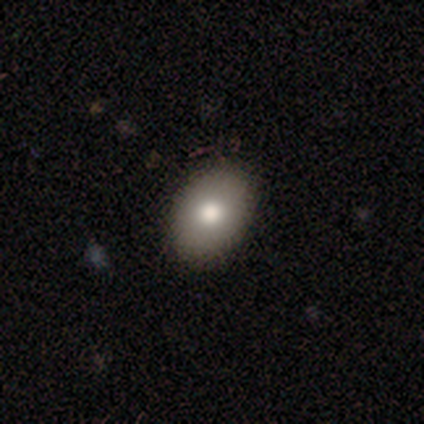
smooth_or_featured: smooth (p=0.88) [alt: featured or disk p=0.12]
how_rounded: in between (p=1.00)
merging: none (p=0.75) [alt: minor disturbance p=0.12]